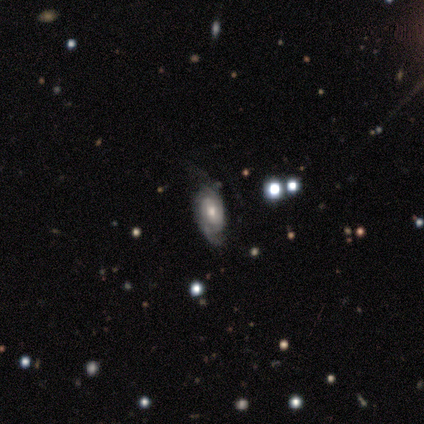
Smooth or featured? featured or disk (90%)
Edge-on disk? no (100%)
Bar? no (69%)
Spiral arms? yes (95%)
Spiral winding? tight (48%)
Spiral arm count? 2 (50%)
Bulge size? moderate (64%)
Merging? none (47%)